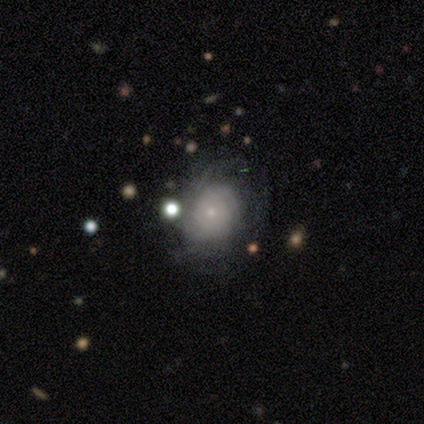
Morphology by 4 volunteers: This is likely a featured or disk galaxy (75%). It is clearly not viewed edge-on (100%). Bar: likely no (67%). Spiral arm pattern: likely yes (67%). Spiral arm count: clearly can't tell (100%). Spiral winding: possibly tight (50%, tied with medium). Central bulge: clearly small (100%). Merging: clearly none (100%).